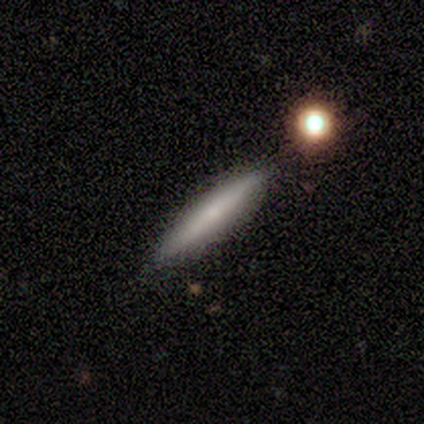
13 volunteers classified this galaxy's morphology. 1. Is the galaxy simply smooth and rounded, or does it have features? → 69% smooth, 23% featured or disk, 8% star or artifact.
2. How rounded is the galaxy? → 89% cigar-shaped, 11% in between, 0% round.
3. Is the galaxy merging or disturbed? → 92% none, 8% merger, 0% minor disturbance, 0% major disturbance.